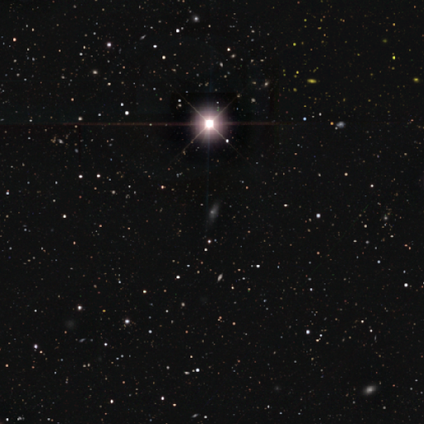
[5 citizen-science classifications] A featured or disk galaxy (40%, tied with star or artifact) with no bar (100%), no spiral arms (100%) and a large central bulge (50%, tied with small). Merging: none (67%).